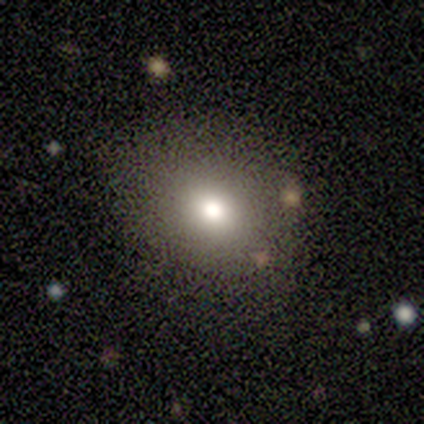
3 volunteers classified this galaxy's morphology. Q: Smooth or featured?
A: featured or disk (67%); runner-up: smooth (33%)
Q: Edge-on disk?
A: no (100%)
Q: Bar?
A: no (100%)
Q: Spiral arms?
A: no (100%)
Q: Bulge size?
A: moderate (100%)
Q: Merging?
A: none (100%)